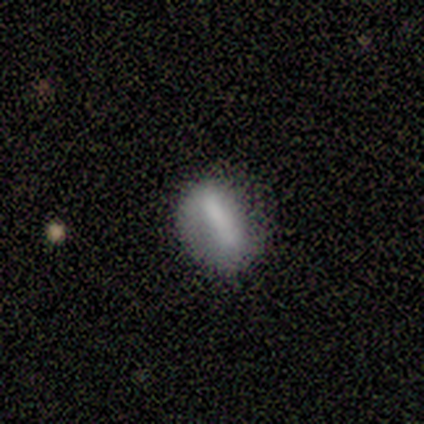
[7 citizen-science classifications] smooth 86%, featured or disk 14%, star or artifact 0%. Down the decision tree: how rounded — in between (83%); merging — none (57%).